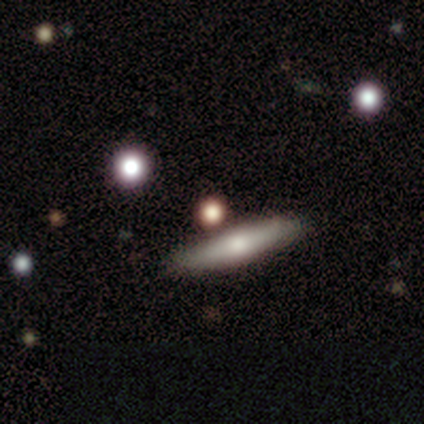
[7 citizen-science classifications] Volunteers were most divided on "smooth or featured": smooth: 43%, featured or disk: 29%, star or artifact: 29%. More confident: merging — none (100%); how rounded — cigar-shaped (67%).